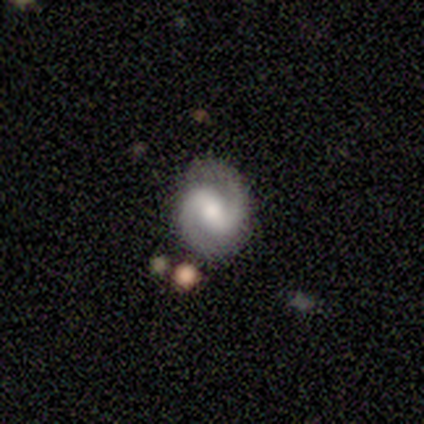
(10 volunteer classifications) Overall: featured or disk (100%). Edge-on disk: no (100%). Bar: strong (60%; weak 30%). Spiral arms: yes (100%). Spiral arm count: 2 (100%). Spiral winding: medium (60%; tight 20%). Bulge size: moderate (70%). Merging: none (100%).